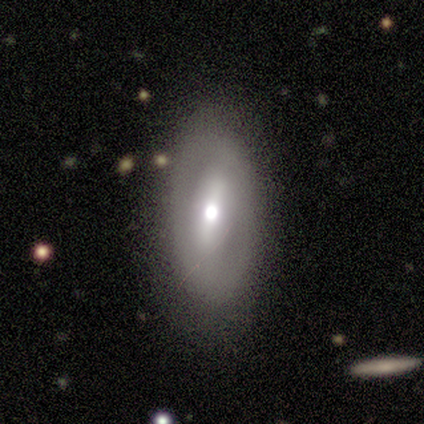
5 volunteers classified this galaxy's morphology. Smooth or featured? featured or disk (60%)
Edge-on disk? no (100%)
Bar? weak (67%)
Spiral arms? no (67%)
Bulge size? moderate (100%)
Merging? none (80%)